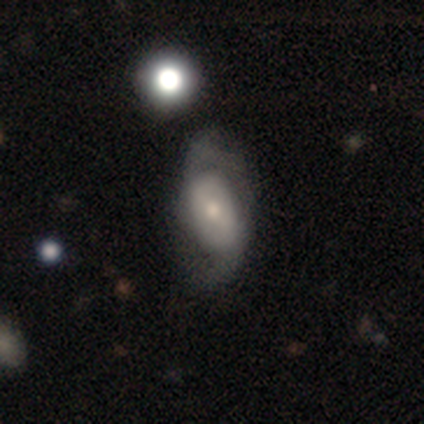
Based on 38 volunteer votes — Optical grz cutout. It shows a featured or disk galaxy (61%) with no bar (57%), 2 (95%) loose (63%) spiral arms (83%) and a small central bulge (48%). Merging: none (49%).